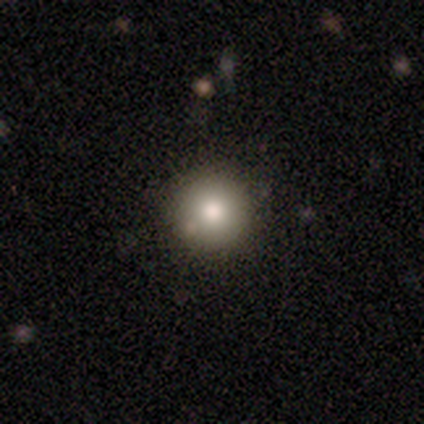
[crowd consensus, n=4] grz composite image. It shows a smooth galaxy with no disk features (50%) that is round (100%). Merging: none (100%).